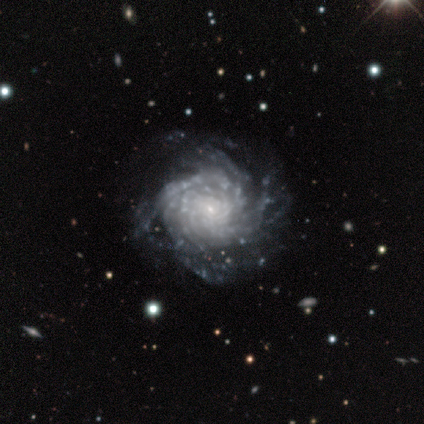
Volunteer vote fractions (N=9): This is clearly a featured or disk galaxy (100%). It is clearly not viewed edge-on (100%). Bar: likely no (67%). Spiral arm pattern: clearly yes (100%). Spiral arm count: marginally can't tell (44%). Spiral winding: likely tight (78%). Central bulge: clearly small (89%). Merging: likely none (78%).